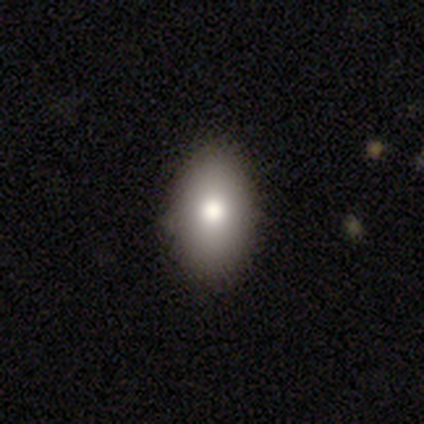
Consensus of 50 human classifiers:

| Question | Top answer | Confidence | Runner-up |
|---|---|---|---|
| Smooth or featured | smooth | 74% | star or artifact (16%) |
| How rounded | in between | 84% | round (11%) |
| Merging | none | 83% | minor disturbance (12%) |